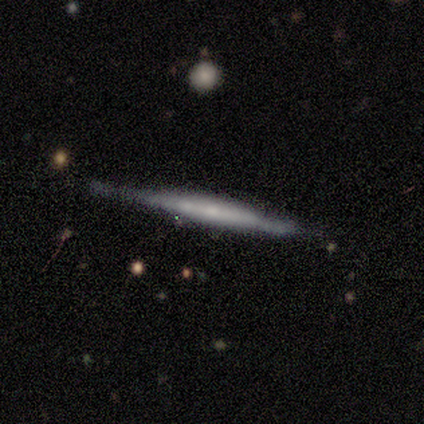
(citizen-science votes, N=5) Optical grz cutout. It shows a featured or disk galaxy (60%) viewed edge-on (100%) with no central bulge (100%). Merging: none (60%).